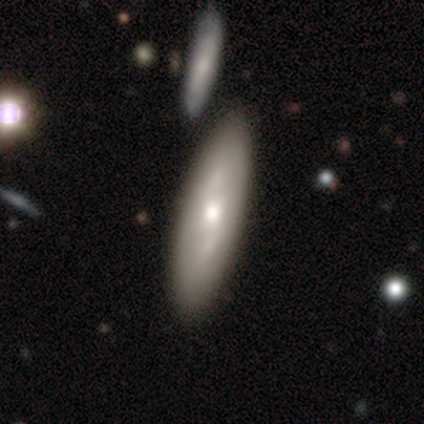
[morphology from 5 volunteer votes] Overall: featured or disk (60%; star or artifact 40%). Edge-on disk: yes (67%; no 33%). Edge-on bulge: rounded (100%). Merging: none (67%; minor disturbance 33%).